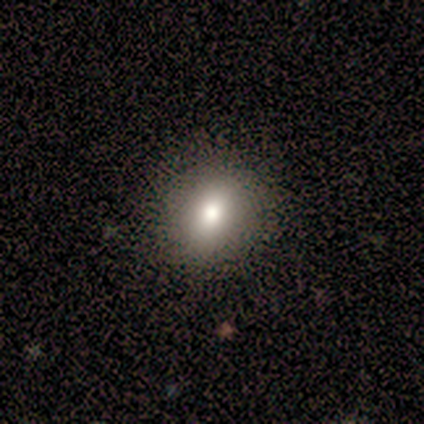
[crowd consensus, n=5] Smooth or featured? smooth (60%)
How rounded? round (67%)
Merging? none (100%)